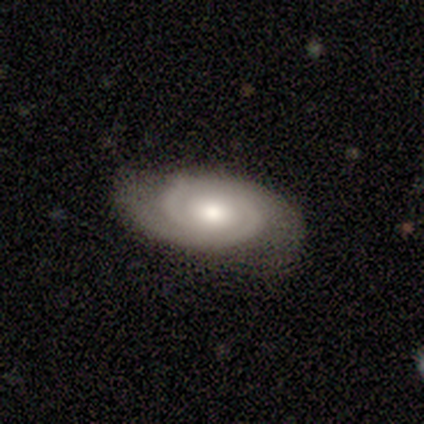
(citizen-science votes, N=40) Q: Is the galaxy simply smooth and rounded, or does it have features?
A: featured or disk — 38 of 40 (95%).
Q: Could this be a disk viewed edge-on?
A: no — 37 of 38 (97%).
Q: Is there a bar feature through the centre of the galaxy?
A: no — 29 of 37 (78%).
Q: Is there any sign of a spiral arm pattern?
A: yes — 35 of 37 (95%).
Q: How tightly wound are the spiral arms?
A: tight — 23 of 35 (66%).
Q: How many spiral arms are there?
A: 2 — 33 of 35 (94%).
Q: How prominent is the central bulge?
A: moderate — 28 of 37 (76%).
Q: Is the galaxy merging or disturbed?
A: none — 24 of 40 (60%).